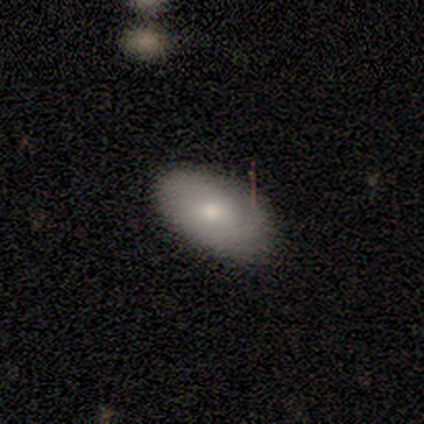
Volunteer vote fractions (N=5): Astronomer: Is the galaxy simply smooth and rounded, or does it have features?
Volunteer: smooth — 60% (runner-up: featured or disk, 40%).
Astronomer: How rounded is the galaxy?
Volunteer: in between — 100%.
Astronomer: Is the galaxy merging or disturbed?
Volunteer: none — 100%.